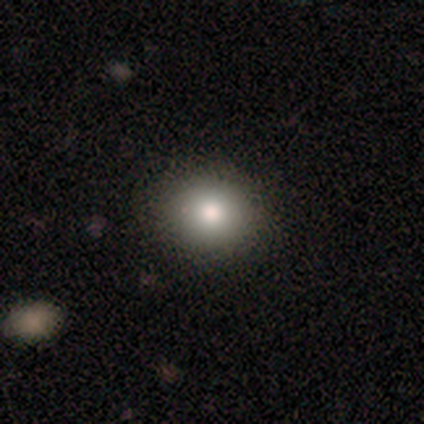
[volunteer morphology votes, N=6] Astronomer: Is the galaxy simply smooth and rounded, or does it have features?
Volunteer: smooth — 83%.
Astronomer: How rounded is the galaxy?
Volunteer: round — 100%.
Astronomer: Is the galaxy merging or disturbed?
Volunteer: none — 100%.